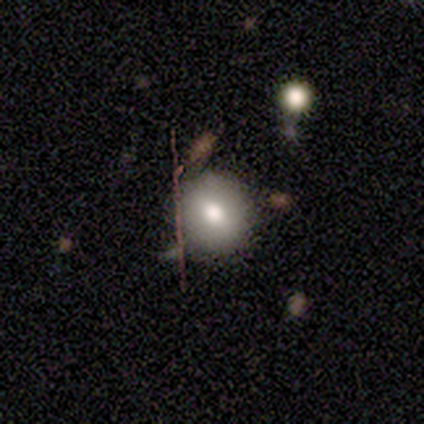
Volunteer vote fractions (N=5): Overall: smooth (60%; star or artifact 40%). How rounded: round (100%). Merging: none (67%; minor disturbance 33%).